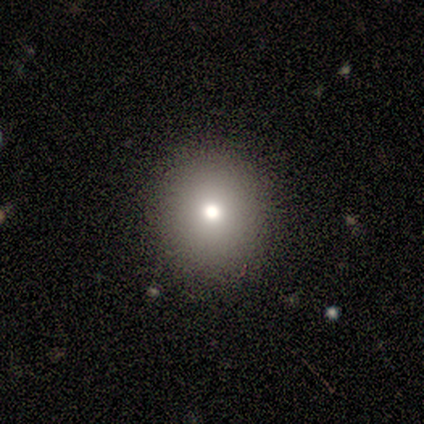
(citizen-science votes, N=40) Smooth or featured? smooth (65%)
How rounded? round (88%)
Merging? none (83%)